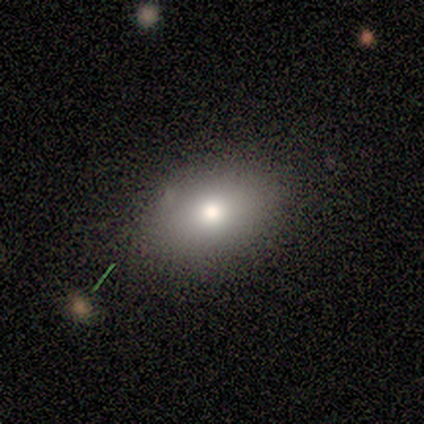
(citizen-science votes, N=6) Q: Smooth or featured?
A: smooth (67%); runner-up: star or artifact (33%)
Q: How rounded?
A: in between (75%); runner-up: round (25%)
Q: Merging?
A: none (75%); runner-up: minor disturbance (25%)